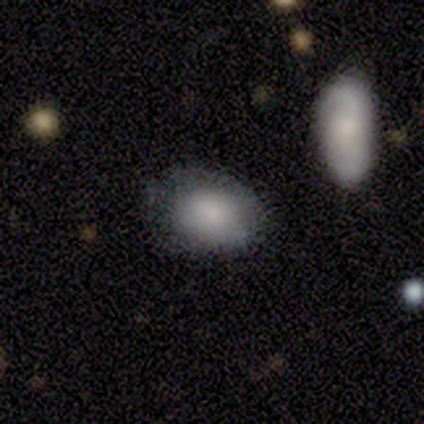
Q: Smooth or featured?
A: smooth (100%)
Q: How rounded?
A: in between (86%); runner-up: round (14%)
Q: Merging?
A: none (43%); tied with: minor disturbance (43%)